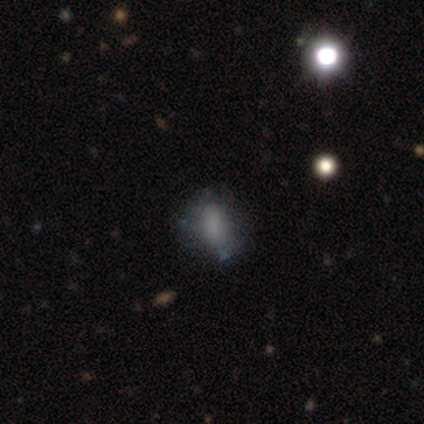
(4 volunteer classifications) smooth_or_featured: smooth (p=0.75) [alt: featured or disk p=0.25]
how_rounded: in between (p=0.67) [alt: round p=0.33]
merging: none (p=0.50) [tied with: minor disturbance p=0.50]